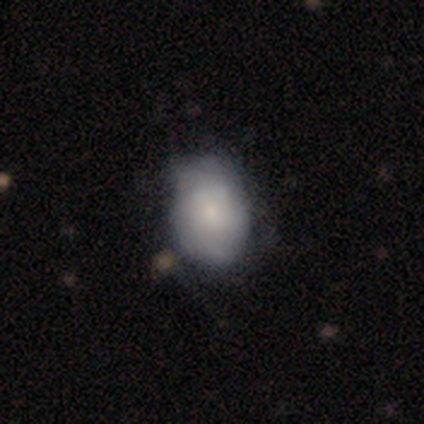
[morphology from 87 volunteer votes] This appears to be a smooth galaxy with no disk features (57%) that is in between round and cigar-shaped (80%). Merging: none (49%).